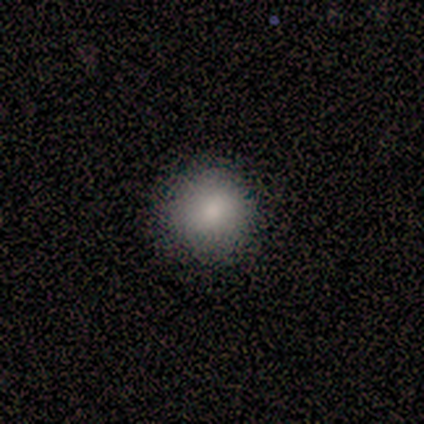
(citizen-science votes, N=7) Smooth or featured: smooth — 86% (star or artifact — 14%)
How rounded: round — 83% (in between — 17%)
Merging: none — 83% (minor disturbance — 17%)